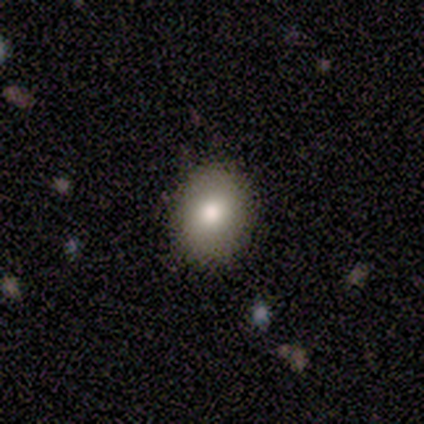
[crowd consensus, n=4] smooth_or_featured: smooth (p=1.00)
how_rounded: round (p=0.50) [tied with: in between p=0.50]
merging: none (p=1.00)